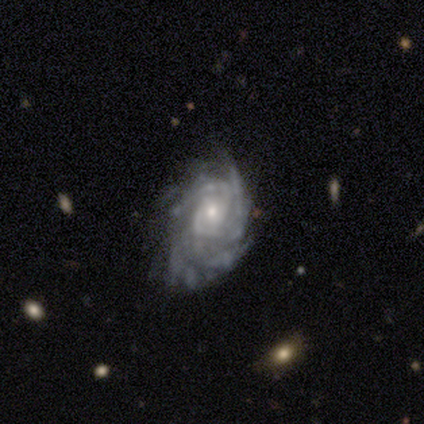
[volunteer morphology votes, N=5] Smooth or featured: featured or disk — 100%
Edge-on disk: no — 100%
Bar: no — 80% (strong — 20%)
Spiral arms: yes — 100%
Spiral winding: tight — 60% (medium — 20%)
Spiral arm count: can't tell — 80% (3 — 20%)
Bulge size: small — 80% (moderate — 20%)
Merging: none — 60% (minor disturbance — 20%)